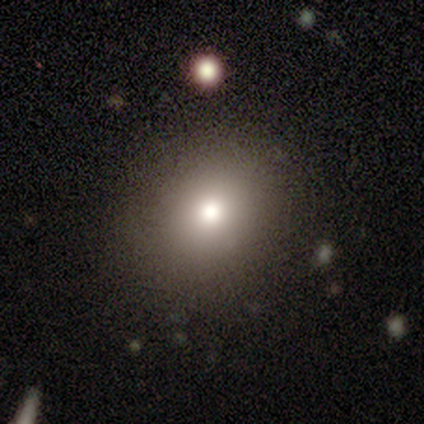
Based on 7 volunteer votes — smooth 71%, featured or disk 29%, star or artifact 0%. Down the decision tree: how rounded — round (60%); merging — none (86%).